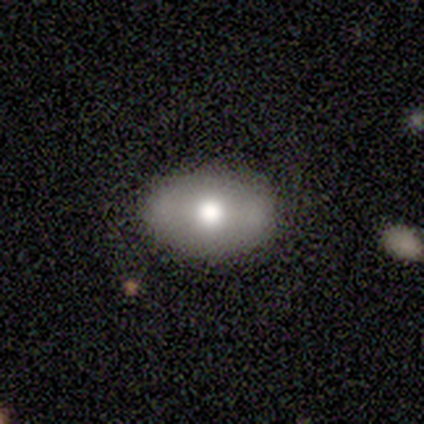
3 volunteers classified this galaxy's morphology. A smooth galaxy with no disk features (67%) that is in between round and cigar-shaped (100%). Merging: none (67%).